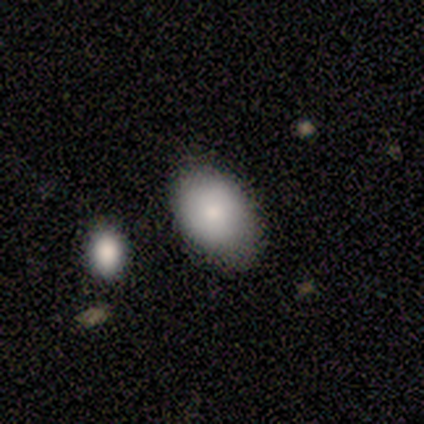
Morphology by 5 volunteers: This appears to be a smooth galaxy with no disk features (100%) that is in between round and cigar-shaped (60%). Merging: none (80%).